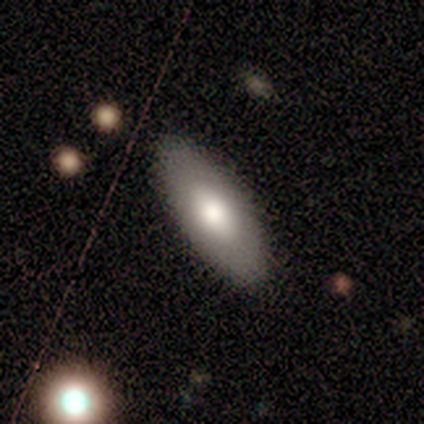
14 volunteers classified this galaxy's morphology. Smooth or featured?
  - smooth: 57% *
  - featured or disk: 36%
  - star or artifact: 7%
How rounded?
  - in between: 88% *
  - cigar-shaped: 12%
  - round: 0%
Merging?
  - none: 85% *
  - minor disturbance: 8%
  - major disturbance: 8%
  - merger: 0%